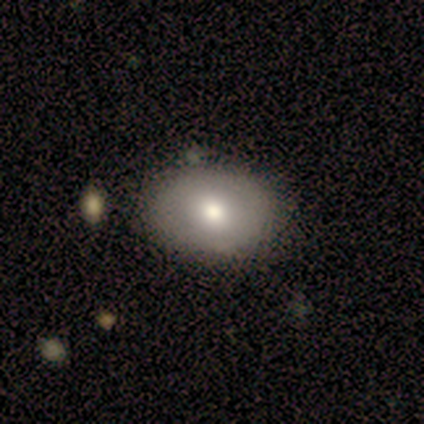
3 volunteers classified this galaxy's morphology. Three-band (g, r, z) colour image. It shows a smooth galaxy with no disk features (67%) that is in between round and cigar-shaped (100%). Merging: none (100%).